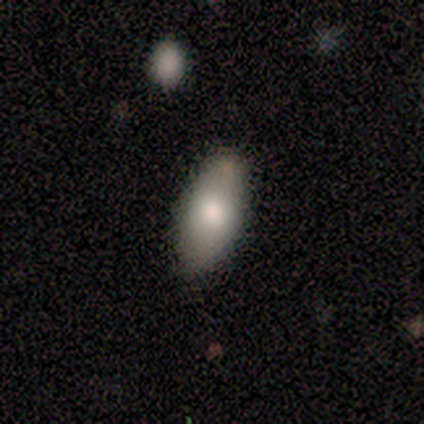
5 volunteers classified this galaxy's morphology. This appears to be a smooth galaxy with no disk features (100%) that is in between round and cigar-shaped (100%). Merging: none (100%).